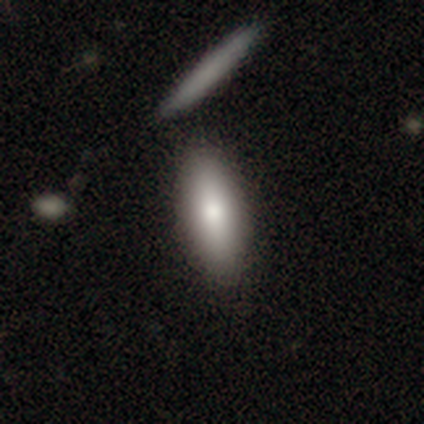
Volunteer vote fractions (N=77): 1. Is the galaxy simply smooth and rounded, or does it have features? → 82% smooth, 14% featured or disk, 4% star or artifact.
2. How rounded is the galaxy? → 79% in between, 19% cigar-shaped, 2% round.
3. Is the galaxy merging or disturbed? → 47% none, 18% merger, 3% minor disturbance, 1% major disturbance.